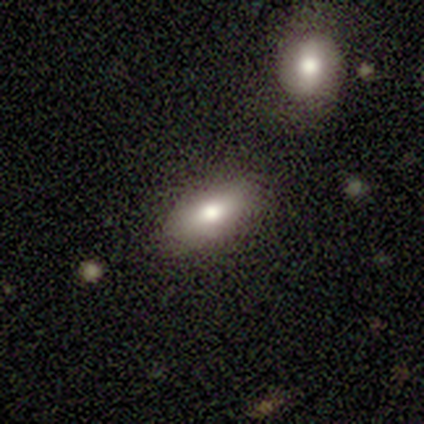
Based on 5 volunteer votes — Morphology: type=smooth (100%); roundness=in between (60%); merging=none (100%).